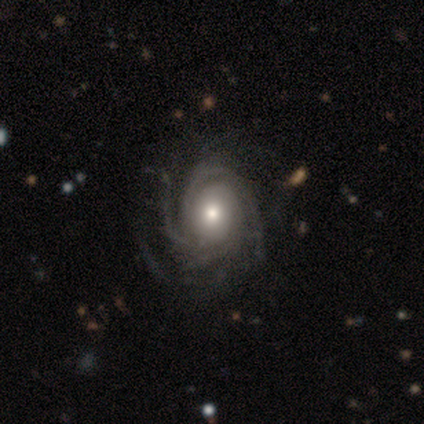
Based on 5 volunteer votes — A featured or disk galaxy (100%) with no bar (80%), tight (100%) spiral arms (100%) and a moderate central bulge (60%).

Vote fractions:
- Smooth or featured? featured or disk: 100% / smooth: 0% / star or artifact: 0%
- Edge-on disk? no: 100% / yes: 0%
- Bar? no: 80% / weak: 20% / strong: 0%
- Spiral arms? yes: 100% / no: 0%
- Spiral winding? tight: 100% / medium: 0% / loose: 0%
- Spiral arm count? can't tell: 40% / 2: 20% / 3: 20% / 4: 20% / 1: 0% / more than 4: 0%
- Bulge size? moderate: 60% / large: 20% / small: 20% / dominant: 0% / none: 0%
- Merging? none: 40% (tied) / minor disturbance: 40% (tied) / merger: 20% / major disturbance: 0%